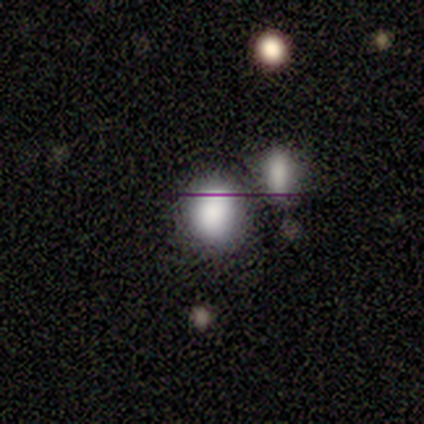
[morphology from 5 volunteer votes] smooth_or_featured: smooth (p=0.60) [alt: star or artifact p=0.40]
how_rounded: round (p=0.67) [alt: in between p=0.33]
merging: none (p=0.67) [alt: merger p=0.33]